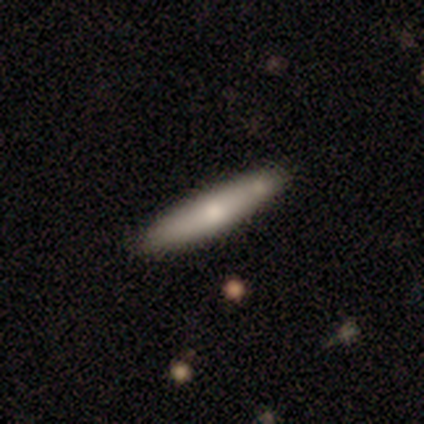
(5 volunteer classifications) Morphology: type=smooth (80%); roundness=cigar-shaped (75%); merging=none (100%).